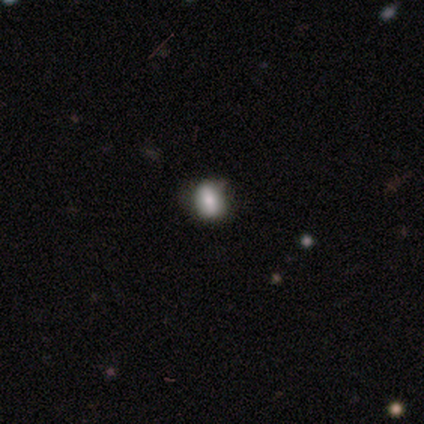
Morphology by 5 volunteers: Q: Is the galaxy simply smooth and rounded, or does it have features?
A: smooth — 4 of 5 (80%).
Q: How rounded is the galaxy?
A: round — 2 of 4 (50%, tied with in between).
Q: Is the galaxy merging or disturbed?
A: none — 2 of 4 (50%, tied with minor disturbance).